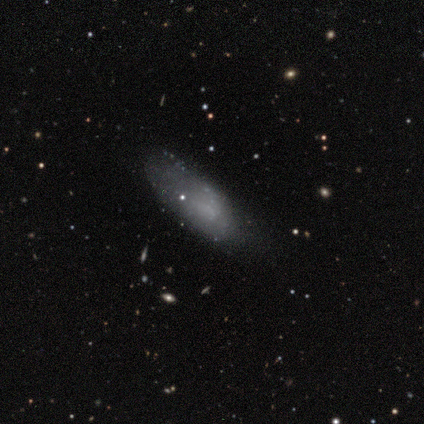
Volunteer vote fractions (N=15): This is possibly a smooth galaxy (47%). How rounded: likely in between (71%). Merging: marginally minor disturbance (42%).